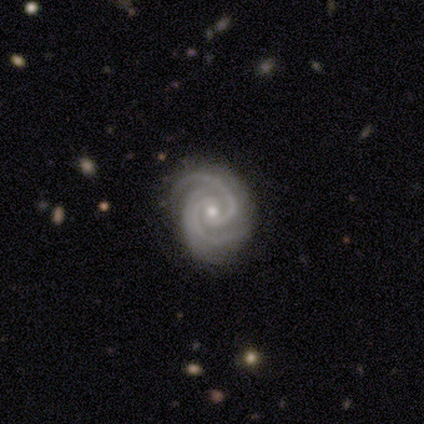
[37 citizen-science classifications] Volunteers were most divided on "bulge size": small: 56%, moderate: 44%, dominant: 0%, large: 0%, none: 0%. More confident: edge-on disk — no (100%); smooth or featured — featured or disk (97%); spiral arms — yes (97%); merging — none (83%); spiral arm count — 2 (69%); bar — no (64%); spiral winding — tight (63%).